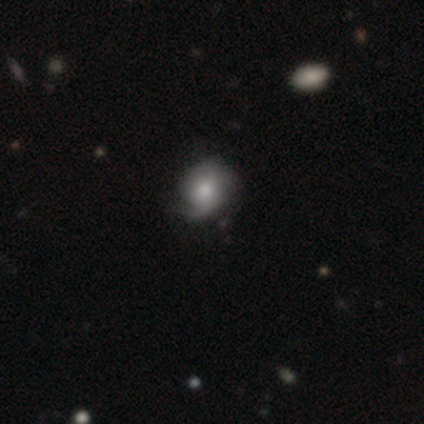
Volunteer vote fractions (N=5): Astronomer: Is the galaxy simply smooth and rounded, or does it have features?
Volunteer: featured or disk — 80%.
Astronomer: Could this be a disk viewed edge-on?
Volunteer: no — 75%.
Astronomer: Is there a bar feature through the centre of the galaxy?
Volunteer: no — 67%.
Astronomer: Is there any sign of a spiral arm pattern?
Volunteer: yes — 100%.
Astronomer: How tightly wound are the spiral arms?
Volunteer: tight — 33%, tied with medium and loose at 33%.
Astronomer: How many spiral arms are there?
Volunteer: can't tell — 67%.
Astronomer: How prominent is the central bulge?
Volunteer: large — 33%, tied with moderate and none at 33%.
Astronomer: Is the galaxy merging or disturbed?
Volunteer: none — 100%.